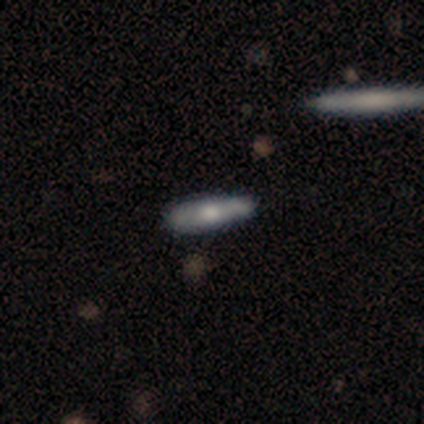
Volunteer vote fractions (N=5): Q: Smooth or featured?
A: smooth (60%); runner-up: featured or disk (40%)
Q: How rounded?
A: in between (67%); runner-up: cigar-shaped (33%)
Q: Merging?
A: none (100%)